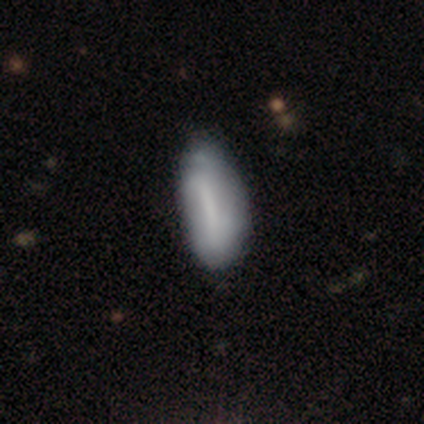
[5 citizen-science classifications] Smooth or featured?
  - smooth: 100% *
  - featured or disk: 0%
  - star or artifact: 0%
How rounded?
  - in between: 80% *
  - cigar-shaped: 20%
  - round: 0%
Merging?
  - minor disturbance: 60% *
  - none: 40%
  - major disturbance: 0%
  - merger: 0%